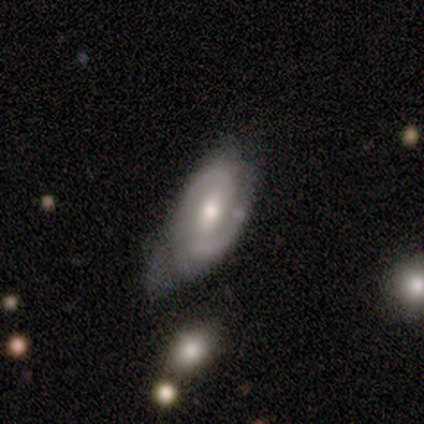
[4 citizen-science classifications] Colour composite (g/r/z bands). It shows a featured or disk galaxy (75%) with a weak bar (100%), 2 (67%) medium (100%) spiral arms (100%) and a moderate central bulge (67%). Merging: minor disturbance (67%).